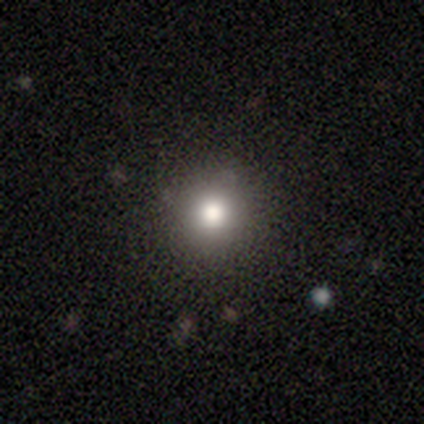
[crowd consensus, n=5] Q: Smooth or featured?
A: smooth (60%); runner-up: featured or disk (20%)
Q: How rounded?
A: round (100%)
Q: Merging?
A: none (75%); runner-up: merger (25%)